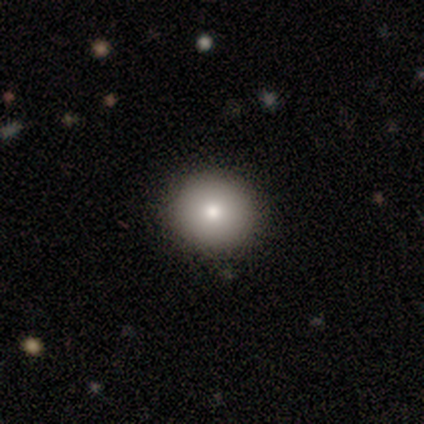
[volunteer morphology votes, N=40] A smooth galaxy with no disk features (85%) that is round (91%).

Vote fractions:
- Smooth or featured? smooth: 85% / star or artifact: 10% / featured or disk: 5%
- How rounded? round: 91% / in between: 9% / cigar-shaped: 0%
- Merging? none: 86% / minor disturbance: 14% / major disturbance: 0% / merger: 0%